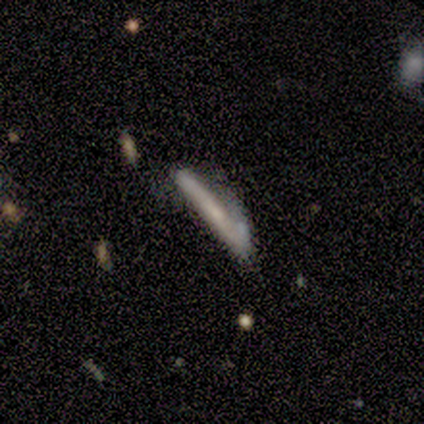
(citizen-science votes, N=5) Morphology: type=featured or disk (60%); edge-on=yes (100%); edge-on bulge=rounded (67%); merging=none (40%, tied with minor disturbance).